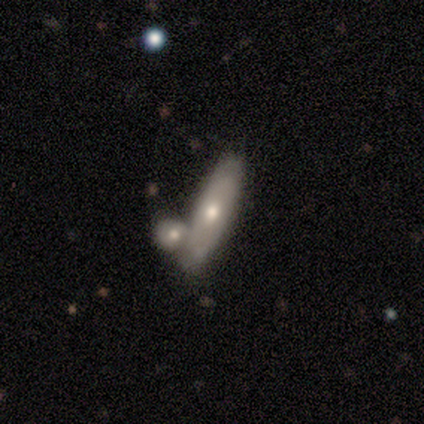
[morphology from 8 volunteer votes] Smooth or featured? 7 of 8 (88%) said smooth. How rounded? 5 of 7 (71%) said cigar-shaped. Merging? 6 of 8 (75%) said none.